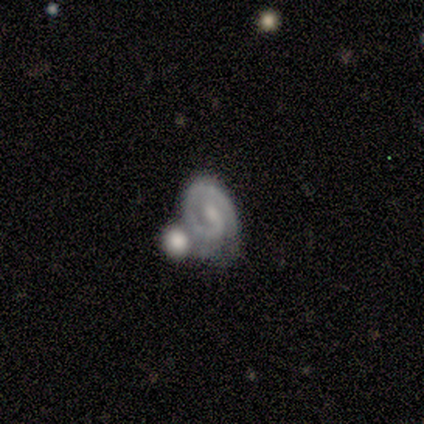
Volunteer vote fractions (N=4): Smooth or featured? featured or disk (75%)
Edge-on disk? no (100%)
Bar? strong (33%, tied with weak and no)
Spiral arms? yes (100%)
Spiral winding? tight (100%)
Spiral arm count? 1 (100%)
Bulge size? none (67%)
Merging? merger (50%)